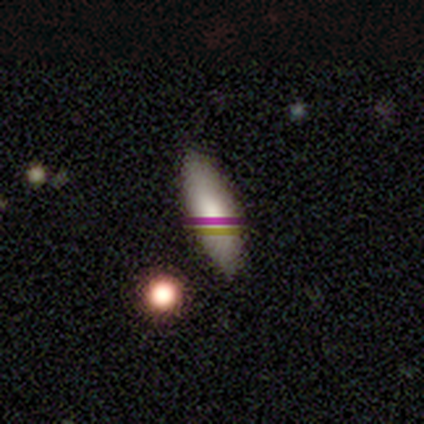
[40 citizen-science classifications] Smooth or featured? smooth (75%)
How rounded? in between (60%)
Merging? none (79%)